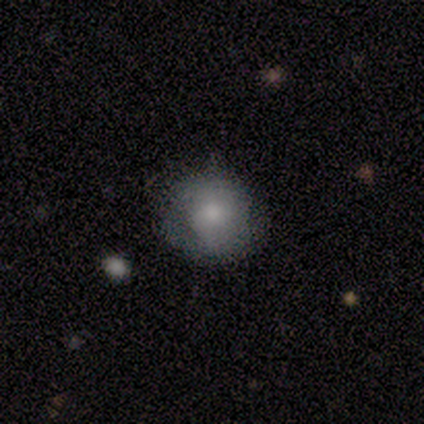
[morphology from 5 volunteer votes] A smooth galaxy with no disk features (80%) that is round (100%).

Vote fractions:
- Smooth or featured? smooth: 80% / featured or disk: 20% / star or artifact: 0%
- How rounded? round: 100% / in between: 0% / cigar-shaped: 0%
- Merging? none: 100% / minor disturbance: 0% / major disturbance: 0% / merger: 0%